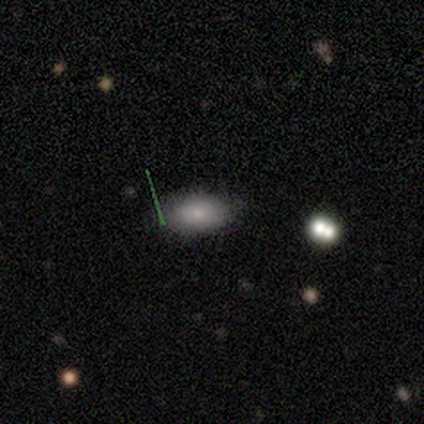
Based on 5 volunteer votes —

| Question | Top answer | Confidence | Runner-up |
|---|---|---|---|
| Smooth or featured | smooth | 80% | star or artifact (20%) |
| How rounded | in between | 100% | — |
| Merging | none | 100% | — |